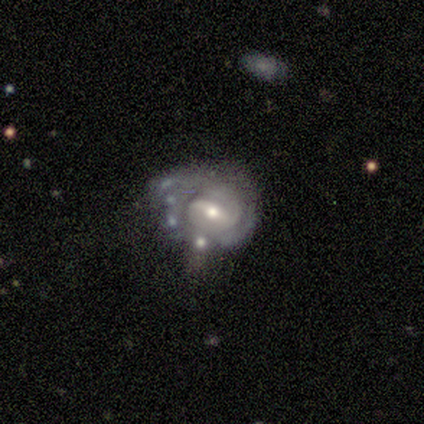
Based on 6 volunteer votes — Smooth or featured: featured or disk — 100%
Edge-on disk: no — 100%
Bar: weak — 50% (no — 33%)
Spiral arms: yes — 50% (tied with no — 50%)
Spiral winding: tight — 67% (loose — 33%)
Spiral arm count: 1 — 33% (tied with 2 — 33%; can't tell — 33%)
Bulge size: moderate — 50% (tied with small — 50%)
Merging: major disturbance — 50% (merger — 33%)